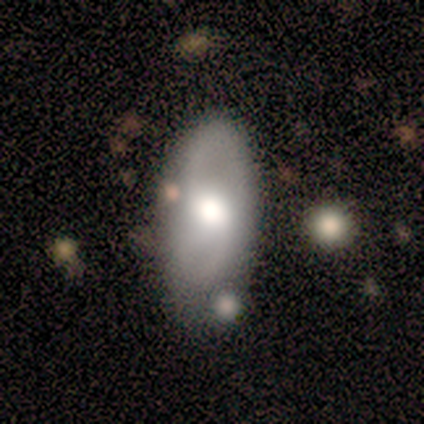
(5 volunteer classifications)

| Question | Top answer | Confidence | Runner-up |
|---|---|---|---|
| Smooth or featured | featured or disk | 60% | smooth (40%) |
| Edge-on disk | no | 100% | — |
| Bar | weak | 67% | no (33%) |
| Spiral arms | yes | 67% | no (33%) |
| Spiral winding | medium | 50% | tied: loose (50%) |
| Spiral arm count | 2 | 50% | tied: can't tell (50%) |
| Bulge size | large | 67% | moderate (33%) |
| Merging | minor disturbance | 60% | none (20%) |